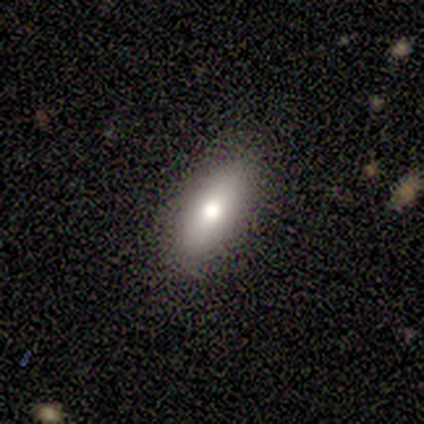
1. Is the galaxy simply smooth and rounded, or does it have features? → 80% smooth, 20% featured or disk, 0% star or artifact.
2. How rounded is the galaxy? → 100% in between, 0% round, 0% cigar-shaped.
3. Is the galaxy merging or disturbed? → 100% none, 0% minor disturbance, 0% major disturbance, 0% merger.